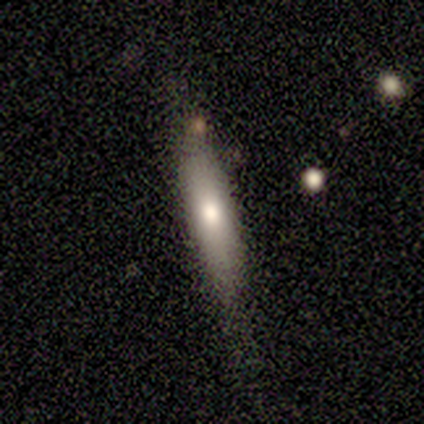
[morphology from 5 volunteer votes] smooth 100%, featured or disk 0%, star or artifact 0%. Down the decision tree: how rounded — cigar-shaped (100%); merging — none (80%).